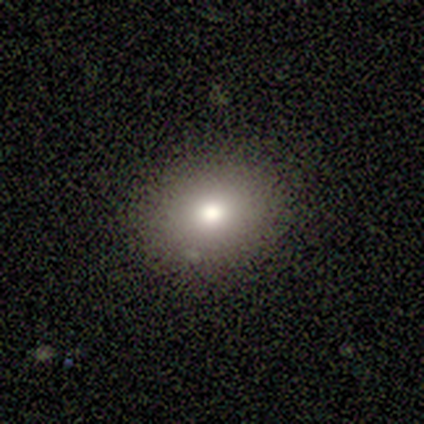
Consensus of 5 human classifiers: Q: Smooth or featured?
A: smooth (100%)
Q: How rounded?
A: round (60%); runner-up: in between (40%)
Q: Merging?
A: none (100%)